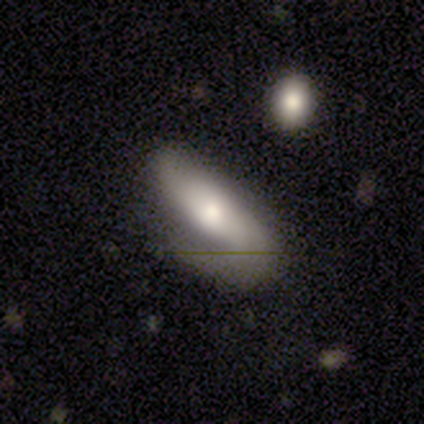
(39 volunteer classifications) Volunteers were most divided on "how rounded": in between: 60%, cigar-shaped: 40%, round: 0%. More confident: merging — none (56%); smooth or featured — smooth (51%).